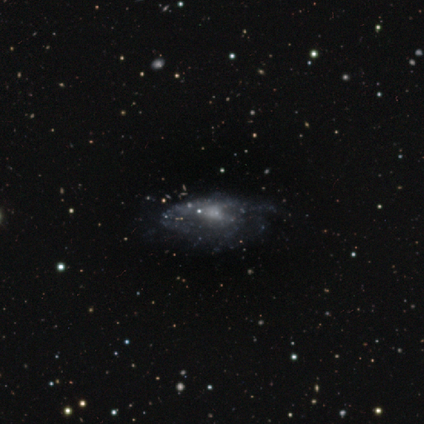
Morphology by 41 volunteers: Smooth or featured?
  - featured or disk: 83% *
  - smooth: 12%
  - star or artifact: 5%
Edge-on disk?
  - no: 94% *
  - yes: 6%
Bar?
  - no: 72% *
  - weak: 22%
  - strong: 6%
Spiral arms?
  - yes: 62% *
  - no: 38%
Spiral winding?
  - medium: 55% *
  - loose: 25%
  - tight: 20%
Spiral arm count?
  - can't tell: 60% *
  - 1: 15%
  - 2: 15%
  - more than 4: 10%
  - 3: 0%
  - 4: 0%
Bulge size?
  - small: 50% *
  - none: 41%
  - moderate: 9%
  - dominant: 0%
  - large: 0%
Merging?
  - none: 33% *
  - major disturbance: 26%
  - minor disturbance: 15%
  - merger: 5%